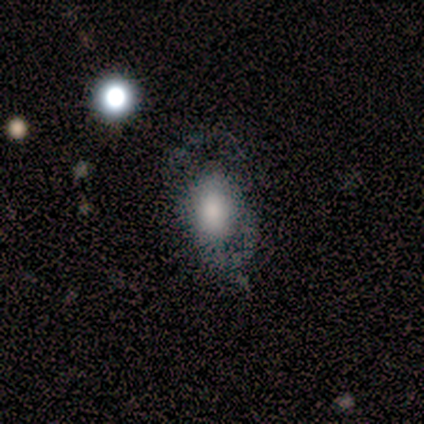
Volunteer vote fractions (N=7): smooth 43% (tied), star or artifact 43% (tied), featured or disk 14%. Down the decision tree: how rounded — in between (67%); merging — major disturbance (50%).